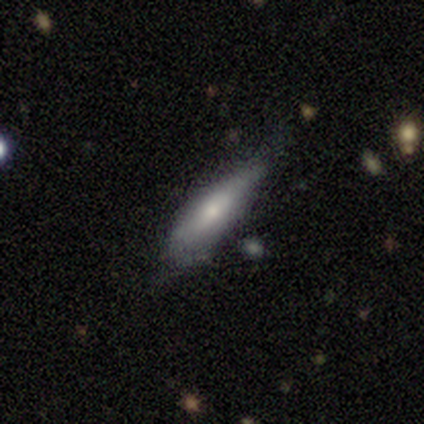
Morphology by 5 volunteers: smooth_or_featured: smooth (p=0.80) [alt: featured or disk p=0.20]
how_rounded: cigar-shaped (p=0.75) [alt: in between p=0.25]
merging: none (p=0.60) [alt: minor disturbance p=0.40]